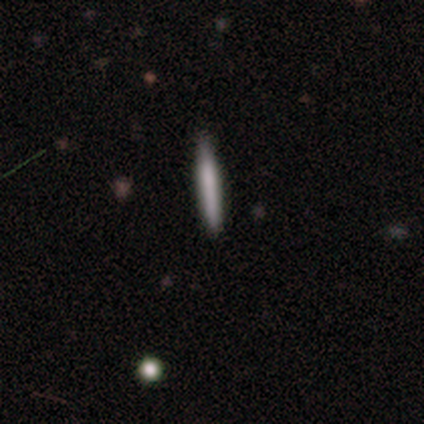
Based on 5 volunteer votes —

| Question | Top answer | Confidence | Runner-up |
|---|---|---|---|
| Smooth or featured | smooth | 60% | featured or disk (40%) |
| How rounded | cigar-shaped | 67% | round (33%) |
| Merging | none | 100% | — |